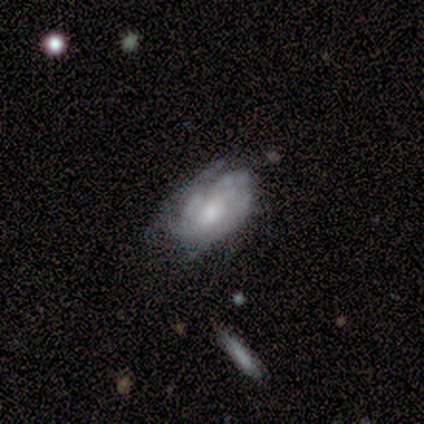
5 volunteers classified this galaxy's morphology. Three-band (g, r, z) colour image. It shows a featured or disk galaxy (60%) with a weak bar (100%), 3 (33%, tied with more than 4 and can't tell) tight (67%) spiral arms (100%) and a moderate central bulge (67%). Merging: none (60%).